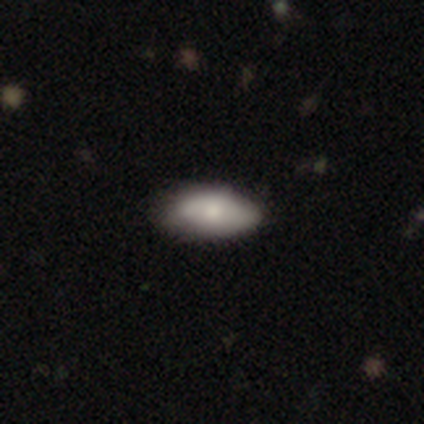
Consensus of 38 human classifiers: Smooth or featured? 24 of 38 (63%) said smooth. How rounded? 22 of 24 (92%) said in between. Merging? 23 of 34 (68%) said none.